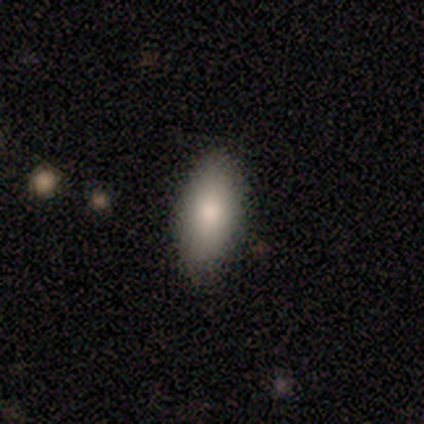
Smooth or featured? 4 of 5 (80%) said smooth. How rounded? 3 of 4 (75%) said in between. Merging? 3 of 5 (60%) said none.